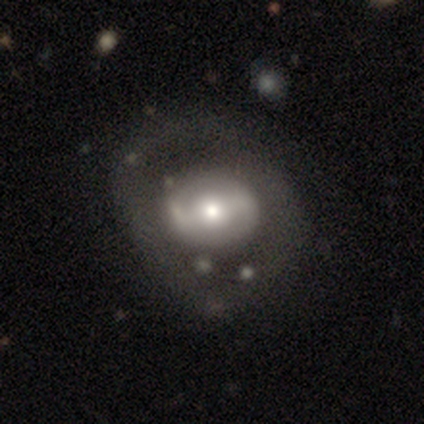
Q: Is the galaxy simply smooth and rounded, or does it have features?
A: featured or disk — 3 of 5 (60%).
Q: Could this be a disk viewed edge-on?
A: no — 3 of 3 (100%).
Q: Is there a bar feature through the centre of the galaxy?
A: weak — 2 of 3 (67%).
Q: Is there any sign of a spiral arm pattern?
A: yes — 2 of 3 (67%).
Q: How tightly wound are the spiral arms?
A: medium — 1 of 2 (50%, tied with loose).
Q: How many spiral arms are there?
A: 1 — 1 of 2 (50%, tied with 2).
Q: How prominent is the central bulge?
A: large — 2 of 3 (67%).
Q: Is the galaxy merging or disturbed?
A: merger — 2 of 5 (40%).